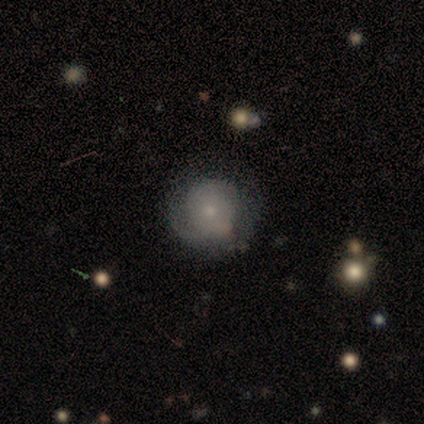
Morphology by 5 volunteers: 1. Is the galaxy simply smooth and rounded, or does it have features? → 40% smooth (tied), 40% featured or disk (tied), 20% star or artifact.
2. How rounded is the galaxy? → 100% round, 0% in between, 0% cigar-shaped.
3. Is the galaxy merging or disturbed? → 50% none, 25% minor disturbance, 25% major disturbance, 0% merger.